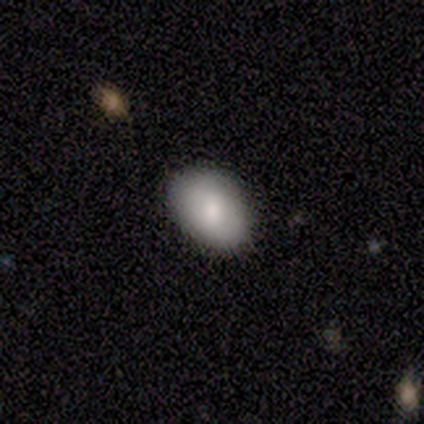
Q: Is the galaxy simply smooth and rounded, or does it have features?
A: smooth — 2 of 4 (50%, tied with featured or disk).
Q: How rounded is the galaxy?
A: in between — 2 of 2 (100%).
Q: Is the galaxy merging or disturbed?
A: none — 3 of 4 (75%).